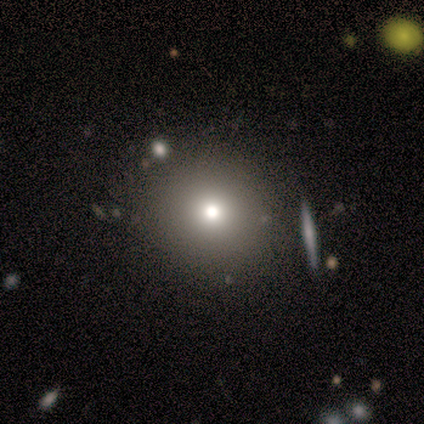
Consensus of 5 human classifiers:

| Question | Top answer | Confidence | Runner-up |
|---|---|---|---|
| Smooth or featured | smooth | 60% | featured or disk (40%) |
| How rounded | round | 100% | — |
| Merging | none | 100% | — |